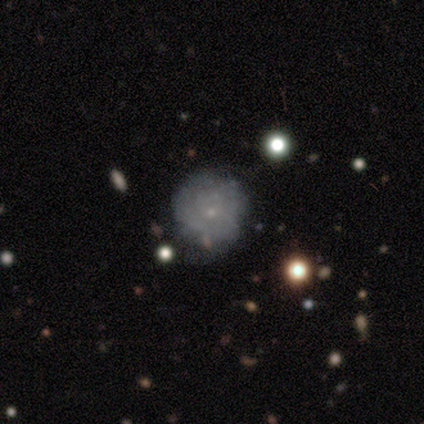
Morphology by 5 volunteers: Smooth or featured?
  - featured or disk: 60% *
  - smooth: 40%
  - star or artifact: 0%
Edge-on disk?
  - no: 100% *
  - yes: 0%
Bar?
  - no: 100% *
  - strong: 0%
  - weak: 0%
Spiral arms?
  - no: 67% *
  - yes: 33%
Bulge size?
  - small: 100% *
  - dominant: 0%
  - large: 0%
  - moderate: 0%
  - none: 0%
Merging?
  - none: 80% *
  - minor disturbance: 20%
  - major disturbance: 0%
  - merger: 0%